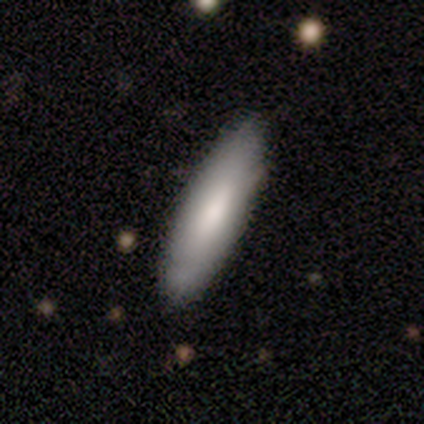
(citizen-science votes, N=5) This appears to be a smooth galaxy with no disk features (80%) that is in between round and cigar-shaped (75%). Merging: none (100%).